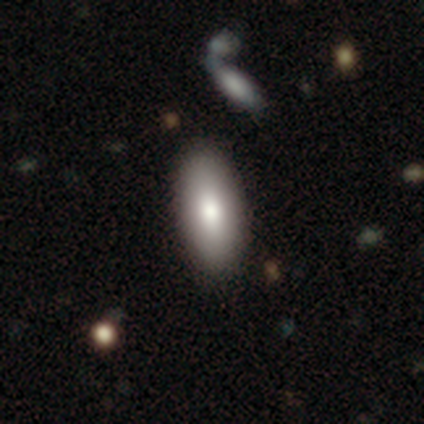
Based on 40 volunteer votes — Overall: smooth (80%). How rounded: in between (78%). Merging: none (76%).